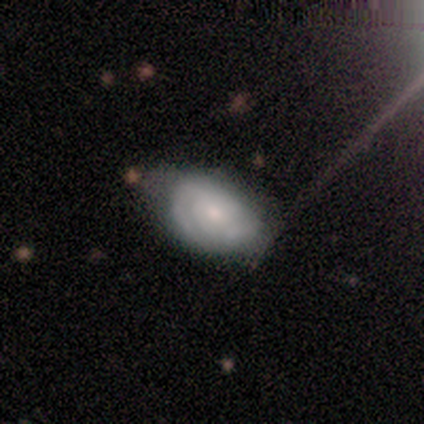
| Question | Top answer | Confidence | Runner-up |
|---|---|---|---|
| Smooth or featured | smooth | 80% | featured or disk (20%) |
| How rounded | in between | 75% | round (25%) |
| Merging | none | 60% | minor disturbance (40%) |